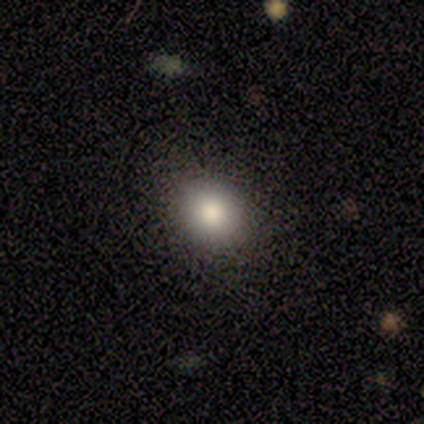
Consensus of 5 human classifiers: Smooth or featured? 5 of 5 (100%) said smooth. How rounded? 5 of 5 (100%) said round. Merging? 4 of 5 (80%) said none.